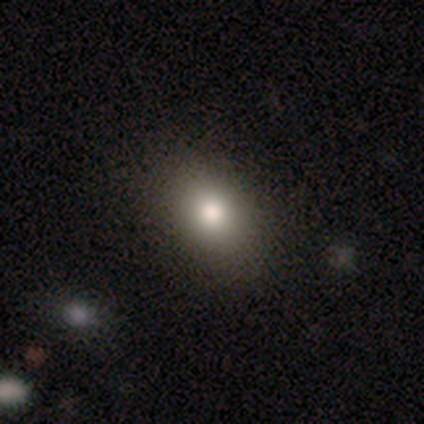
smooth-or-featured: smooth: 75% | star or artifact: 15% | featured or disk: 10%
  how-rounded: in between: 67% | round: 32% | cigar-shaped: 2%
  merging: none: 85% | minor disturbance: 12% | major disturbance: 3% | merger: 0%